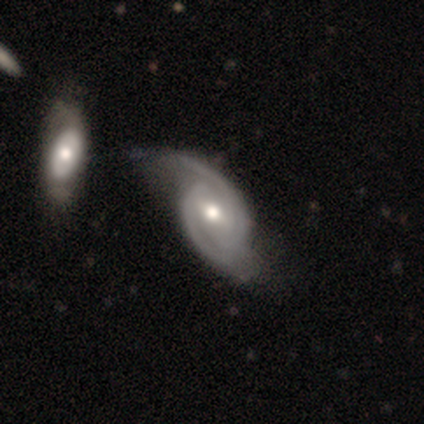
This is clearly a featured or disk galaxy (92%). It is clearly not viewed edge-on (94%). Bar: possibly weak (55%). Spiral arm pattern: clearly yes (96%). Spiral arm count: clearly 2 (80%). Spiral winding: marginally tight (41%). Central bulge: likely moderate (79%). Merging: marginally none (44%).